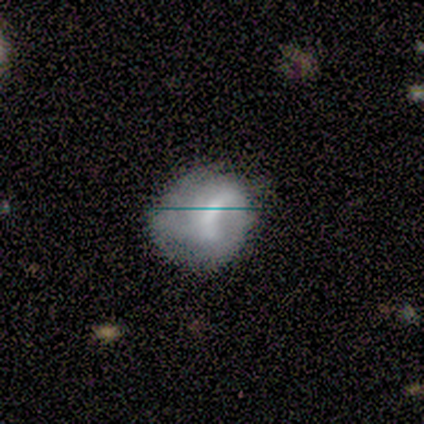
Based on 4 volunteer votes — This is possibly a smooth galaxy (50%, tied with star or artifact). How rounded: clearly round (100%). Merging: possibly none (50%, tied with major disturbance).